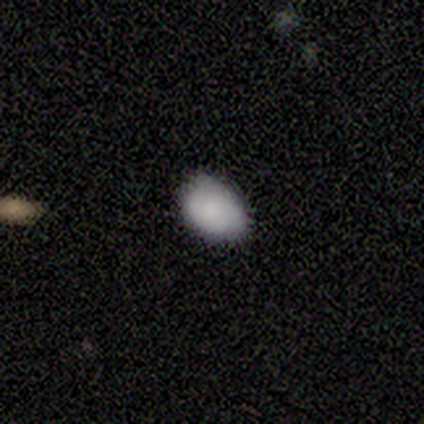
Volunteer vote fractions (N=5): This is clearly a smooth galaxy (100%). How rounded: clearly in between (100%). Merging: clearly none (80%).